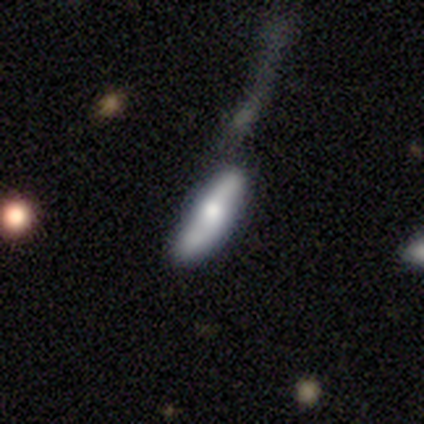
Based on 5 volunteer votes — This appears to be a featured or disk galaxy (60%) viewed edge-on (67%) with no central bulge (50%, tied with rounded). Merging: minor disturbance (50%).